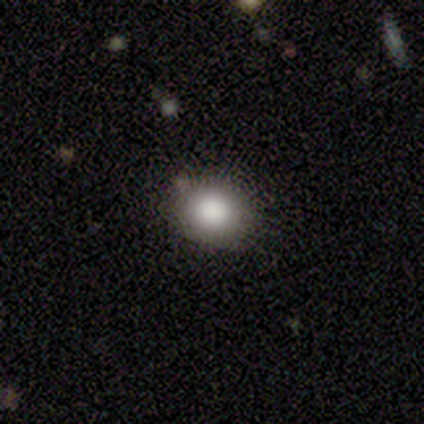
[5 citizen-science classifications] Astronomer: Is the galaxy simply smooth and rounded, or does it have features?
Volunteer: smooth — 80%.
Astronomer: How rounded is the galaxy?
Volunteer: round — 100%.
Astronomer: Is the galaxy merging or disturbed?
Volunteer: none — 80%.